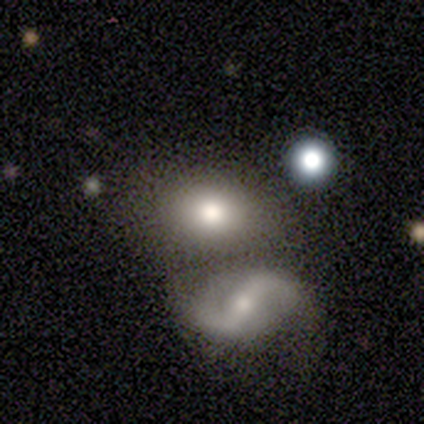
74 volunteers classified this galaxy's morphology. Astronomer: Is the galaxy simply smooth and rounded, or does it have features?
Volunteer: smooth — 59%.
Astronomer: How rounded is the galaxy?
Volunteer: in between — 80%.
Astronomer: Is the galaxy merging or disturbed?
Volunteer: merger — 44% (runner-up: none, 43%).